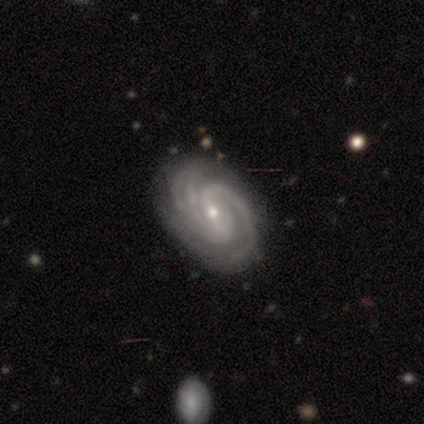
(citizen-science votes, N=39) Morphology: type=featured or disk (92%); edge-on=no (100%); bar=weak (56%); spiral arms=yes (100%); winding=tight (50%); arm count=3 (39%); bulge=small (81%); merging=none (92%).